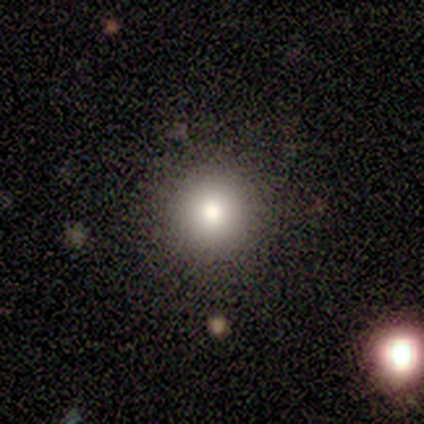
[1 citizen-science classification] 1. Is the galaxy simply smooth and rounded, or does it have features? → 100% smooth, 0% featured or disk, 0% star or artifact.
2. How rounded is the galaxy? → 100% round, 0% in between, 0% cigar-shaped.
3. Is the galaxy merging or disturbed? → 100% none, 0% minor disturbance, 0% major disturbance, 0% merger.